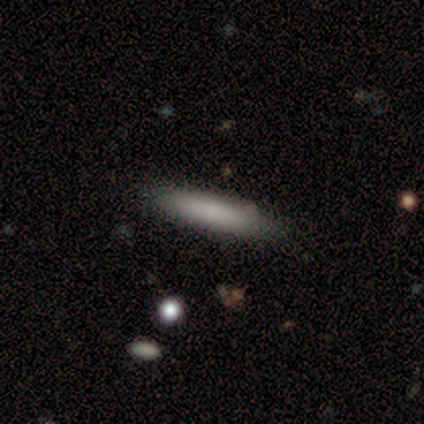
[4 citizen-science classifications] smooth-or-featured: smooth: 50% | featured or disk: 25% | star or artifact: 25%
  how-rounded: cigar-shaped: 100% | round: 0% | in between: 0%
  merging: none: 67% | merger: 33% | minor disturbance: 0% | major disturbance: 0%